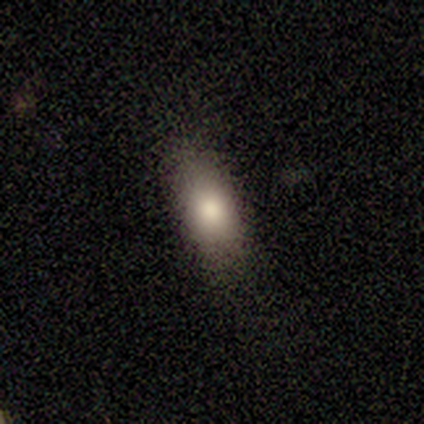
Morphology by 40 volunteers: smooth 80%, featured or disk 12%, star or artifact 8%. Down the decision tree: how rounded — in between (81%); merging — none (70%).